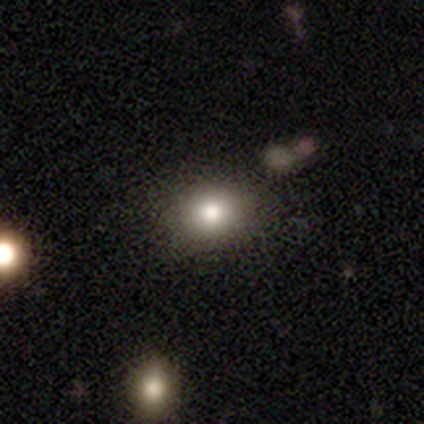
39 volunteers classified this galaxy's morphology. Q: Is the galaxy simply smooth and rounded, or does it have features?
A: smooth — 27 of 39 (69%).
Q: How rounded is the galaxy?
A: in between — 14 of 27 (52%).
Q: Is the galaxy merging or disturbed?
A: none — 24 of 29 (83%).